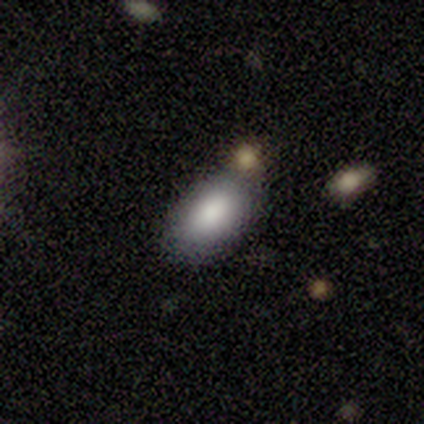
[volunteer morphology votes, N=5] Smooth or featured? smooth (80%)
How rounded? in between (100%)
Merging? none (75%)